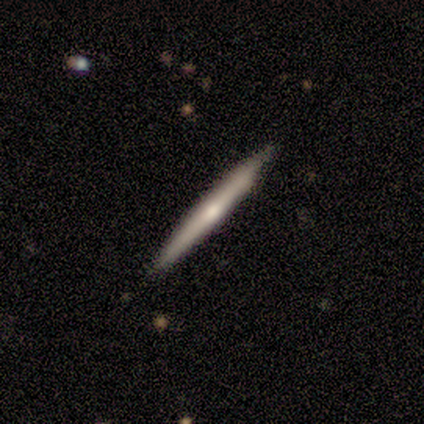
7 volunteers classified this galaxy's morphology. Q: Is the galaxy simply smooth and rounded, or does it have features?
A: smooth — 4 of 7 (57%).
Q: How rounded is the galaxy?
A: cigar-shaped — 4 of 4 (100%).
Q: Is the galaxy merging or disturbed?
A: none — 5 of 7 (71%).